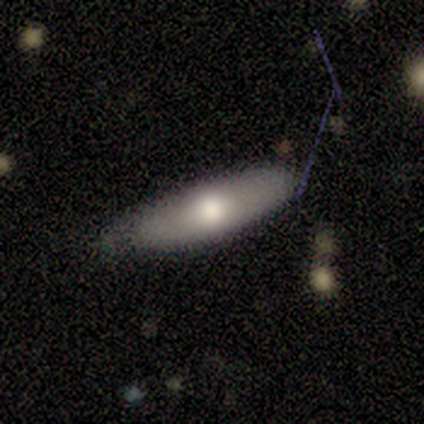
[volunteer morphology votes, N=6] type=smooth (50%, tied with featured or disk); roundness=in between (67%); merging=none (67%).